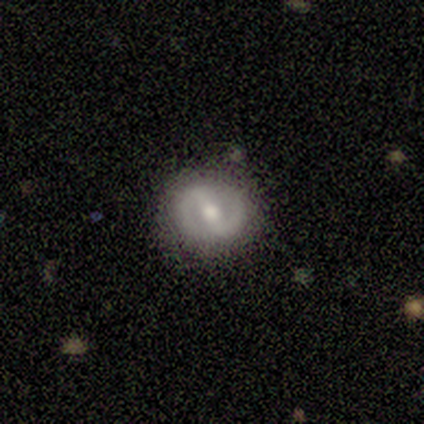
Smooth or featured? smooth (50%, tied with featured or disk)
How rounded? round (100%)
Merging? none (83%)